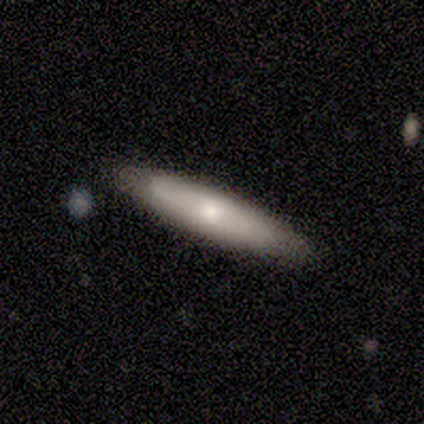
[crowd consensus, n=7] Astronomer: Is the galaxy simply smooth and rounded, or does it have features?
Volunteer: smooth — 57% (runner-up: featured or disk, 43%).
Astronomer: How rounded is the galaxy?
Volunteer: cigar-shaped — 75%.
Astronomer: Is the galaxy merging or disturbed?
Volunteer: none — 86%.